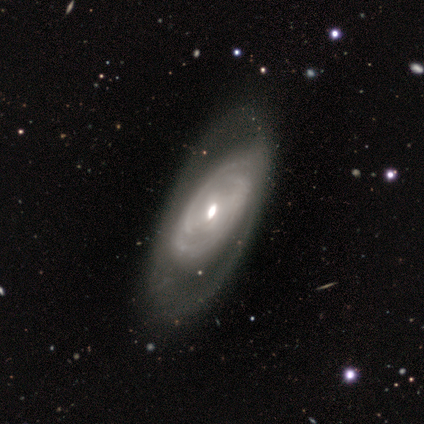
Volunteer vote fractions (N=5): A featured or disk galaxy (100%) with no bar (100%), tight (100%) spiral arms (67%) and a small central bulge (67%). Merging: none (80%).